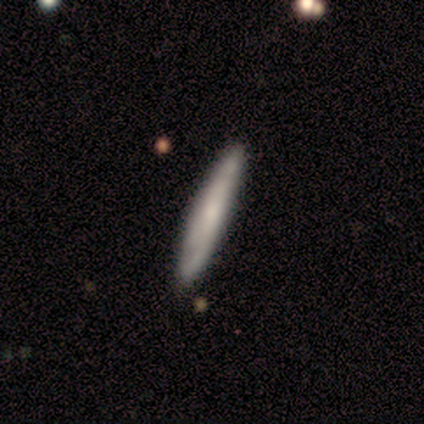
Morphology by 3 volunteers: Volunteers were most divided on "smooth or featured": featured or disk: 67%, smooth: 33%, star or artifact: 0%. More confident: edge-on disk — yes (100%); edge-on bulge — rounded (100%); merging — none (67%).